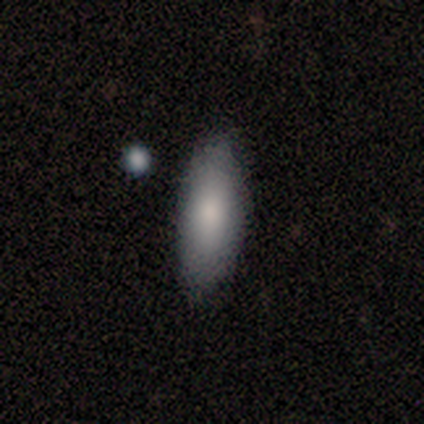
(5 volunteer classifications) Overall: smooth (80%). How rounded: in between (50%, tied with cigar-shaped). Merging: none (80%).